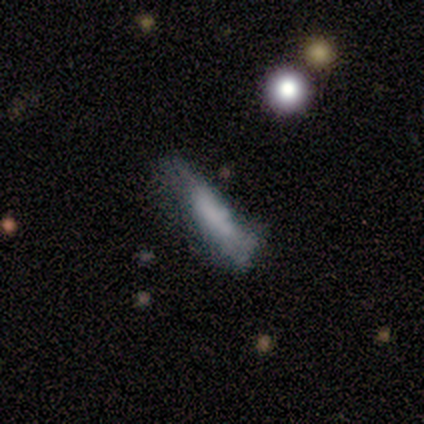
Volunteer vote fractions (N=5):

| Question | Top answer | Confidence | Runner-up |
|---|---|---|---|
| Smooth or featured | smooth | 40% | tied: featured or disk (40%) |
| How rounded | in between | 50% | tied: cigar-shaped (50%) |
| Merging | none | 50% | tied: minor disturbance (50%) |